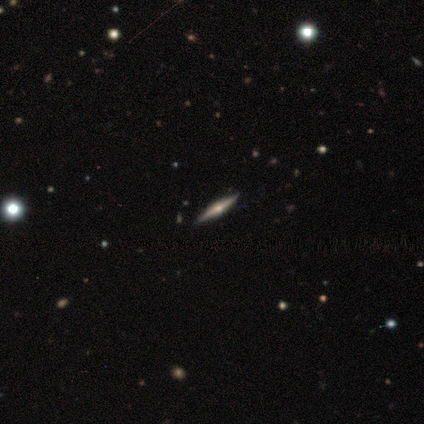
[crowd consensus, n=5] This is clearly a featured or disk galaxy (80%). It is likely viewed edge-on (75%). Edge-on bulge: clearly rounded (100%). Merging: clearly none (80%).